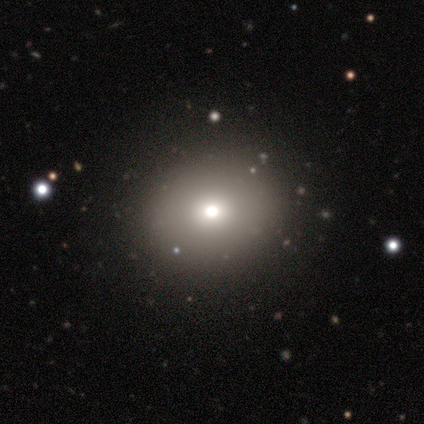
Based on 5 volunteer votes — Volunteers were most divided on "how rounded" (2-way tie): round: 50%, in between: 50%, cigar-shaped: 0%. More confident: smooth or featured — smooth (80%); merging — none (80%).